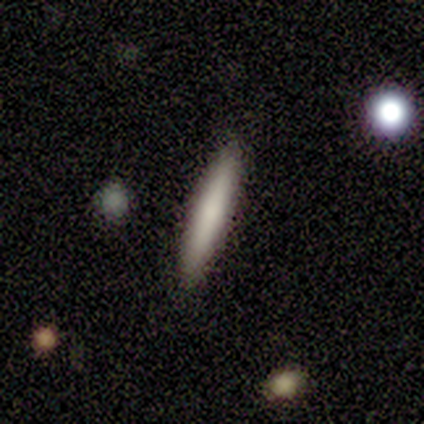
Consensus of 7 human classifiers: Smooth or featured? smooth (57%)
How rounded? in between (50%, tied with cigar-shaped)
Merging? none (100%)